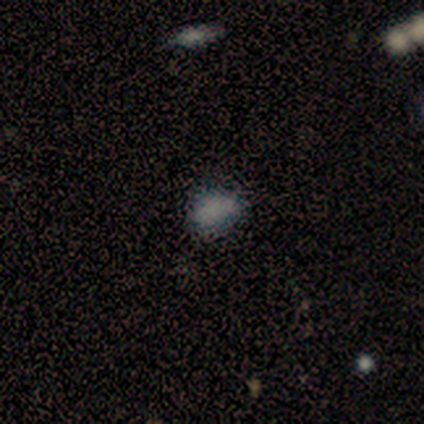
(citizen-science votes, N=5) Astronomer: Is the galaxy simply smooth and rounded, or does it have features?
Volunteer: smooth — 80%.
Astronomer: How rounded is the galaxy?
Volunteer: in between — 100%.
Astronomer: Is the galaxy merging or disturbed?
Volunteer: none — 50%, tied with minor disturbance at 50%.